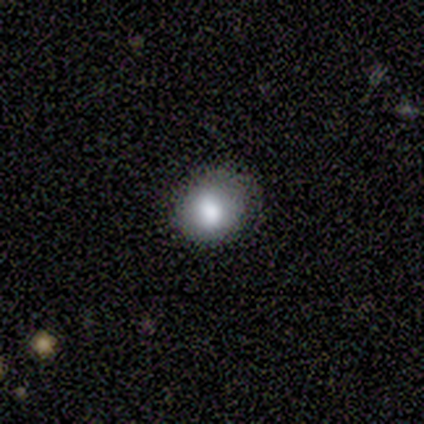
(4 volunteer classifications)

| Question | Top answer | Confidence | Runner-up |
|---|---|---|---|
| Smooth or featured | smooth | 50% | featured or disk (25%) |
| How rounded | round | 100% | — |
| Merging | none | 100% | — |